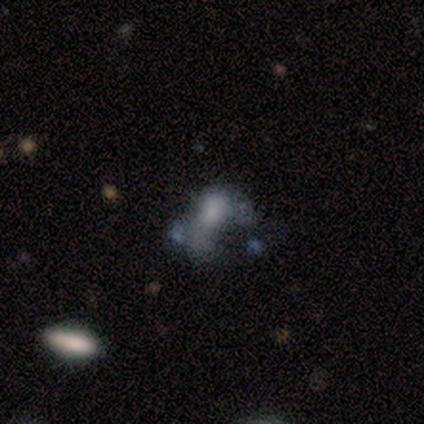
A featured or disk galaxy (60%) with no bar (100%), no spiral arms (100%) and a moderate central bulge (33%, tied with small and none). Merging: none (40%, tied with major disturbance).